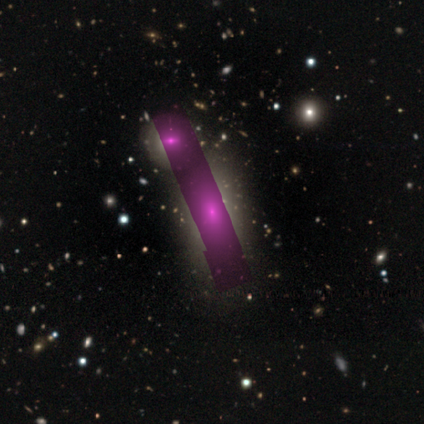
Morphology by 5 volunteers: Smooth or featured? star or artifact (80%)